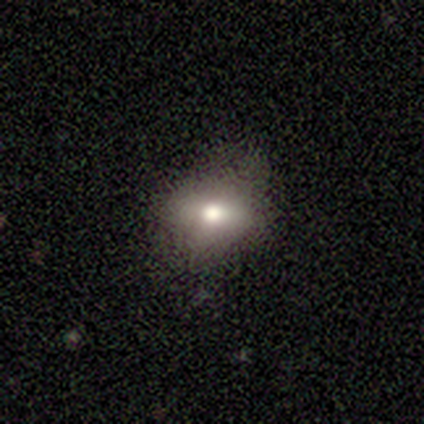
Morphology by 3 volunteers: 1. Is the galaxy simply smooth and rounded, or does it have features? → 100% smooth, 0% featured or disk, 0% star or artifact.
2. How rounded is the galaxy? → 67% round, 33% in between, 0% cigar-shaped.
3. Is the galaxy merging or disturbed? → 100% none, 0% minor disturbance, 0% major disturbance, 0% merger.